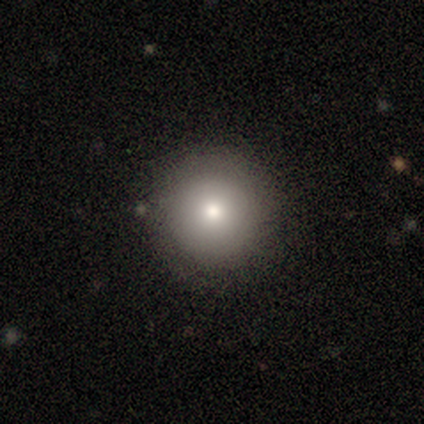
Smooth or featured? 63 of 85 (74%) said smooth. How rounded? 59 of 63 (94%) said round. Merging? 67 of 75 (89%) said none.